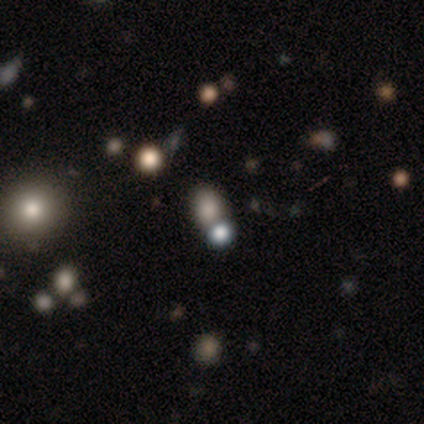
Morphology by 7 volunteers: Overall: smooth (86%). How rounded: in between (67%; round 33%). Merging: none (83%).